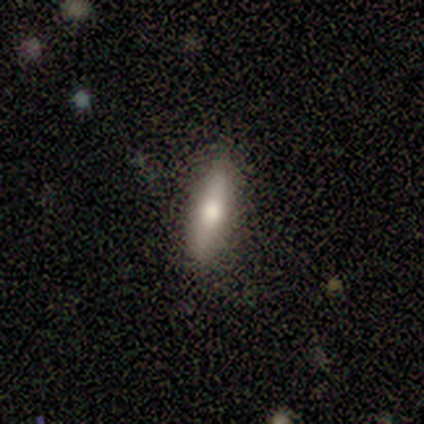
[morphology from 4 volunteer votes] Q: Smooth or featured?
A: smooth (100%)
Q: How rounded?
A: cigar-shaped (50%); runner-up: round (25%)
Q: Merging?
A: none (75%); runner-up: minor disturbance (25%)